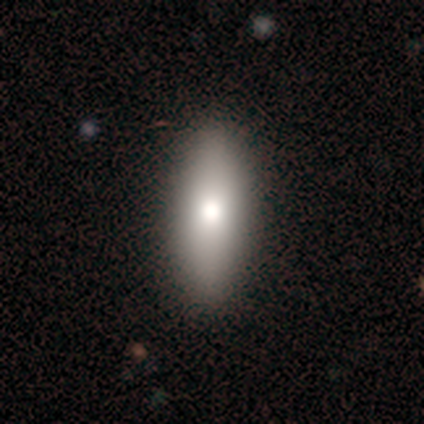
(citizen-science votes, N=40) smooth-or-featured: smooth: 80% | featured or disk: 15% | star or artifact: 5%
  how-rounded: in between: 81% | cigar-shaped: 19% | round: 0%
  merging: none: 68% | major disturbance: 3% | minor disturbance: 0% | merger: 0%